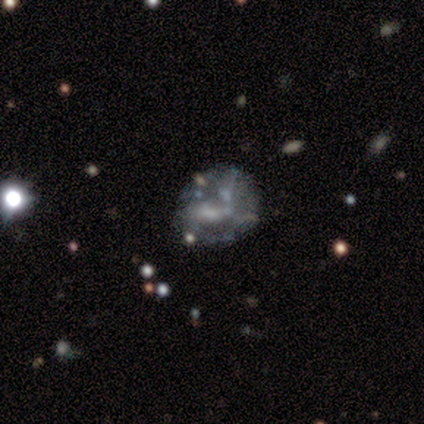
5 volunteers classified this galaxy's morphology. smooth 40% (tied), featured or disk 40% (tied), star or artifact 20%. Down the decision tree: how rounded — round (100%); merging — none (50%).